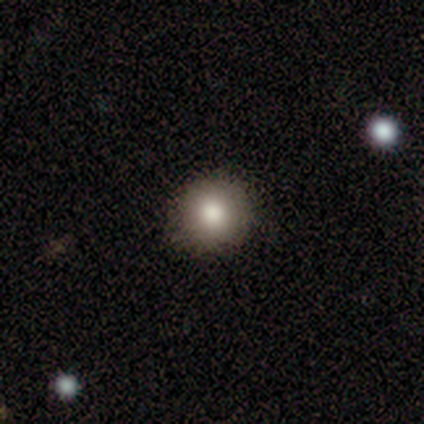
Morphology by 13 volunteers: Smooth or featured? smooth (92%)
How rounded? round (92%)
Merging? none (92%)